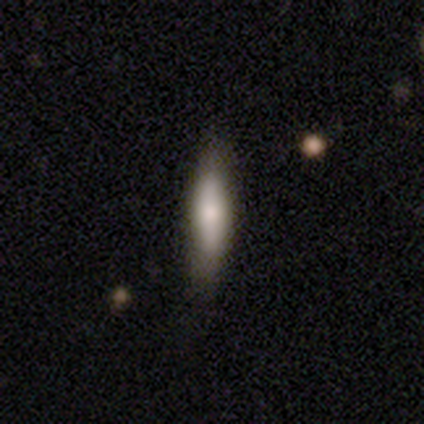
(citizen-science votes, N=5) Smooth or featured?
  - smooth: 80% *
  - featured or disk: 20%
  - star or artifact: 0%
How rounded?
  - in between: 50% * (tied)
  - cigar-shaped: 50% * (tied)
  - round: 0%
Merging?
  - none: 60% *
  - minor disturbance: 40%
  - major disturbance: 0%
  - merger: 0%